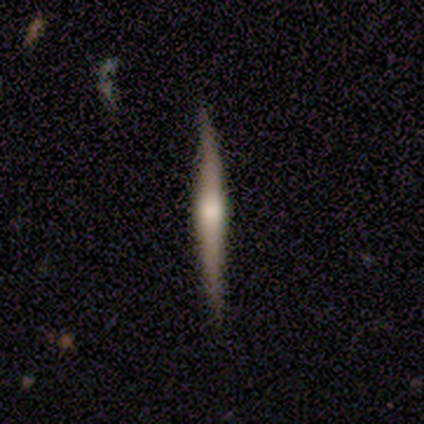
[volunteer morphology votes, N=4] Overall: featured or disk (75%). Edge-on disk: yes (100%). Edge-on bulge: rounded (100%). Merging: none (100%).